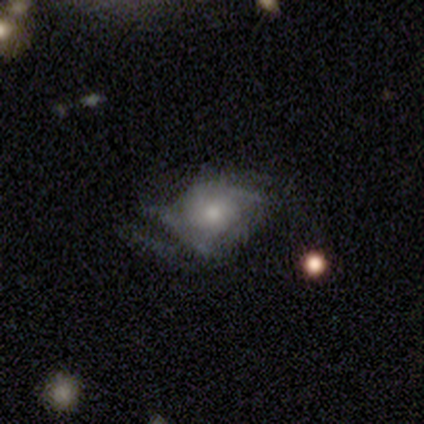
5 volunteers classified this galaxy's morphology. Smooth or featured? featured or disk (80%)
Edge-on disk? no (100%)
Bar? no (75%)
Spiral arms? yes (100%)
Spiral winding? tight (75%)
Spiral arm count? 3 (50%)
Bulge size? moderate (50%)
Merging? major disturbance (60%)